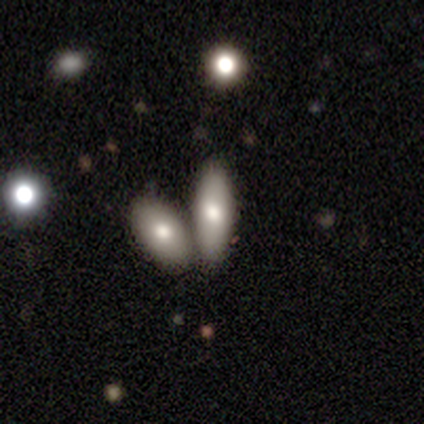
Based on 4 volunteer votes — Q: Smooth or featured?
A: smooth (100%)
Q: How rounded?
A: in between (75%); runner-up: cigar-shaped (25%)
Q: Merging?
A: none (50%); tied with: merger (50%)